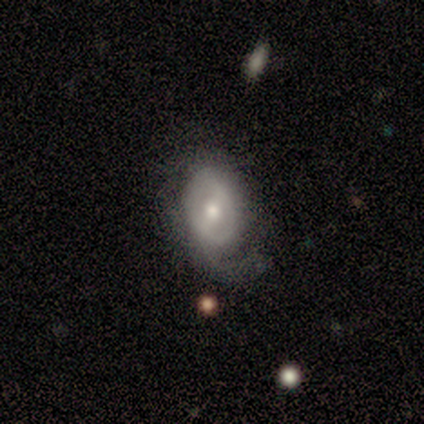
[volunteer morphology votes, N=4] Volunteers were most divided on "bar" (2-way tie): strong: 50%, weak: 50%, no: 0%; "spiral arms" (2-way tie): yes: 50%, no: 50%; "bulge size" (2-way tie): dominant: 50%, moderate: 50%, large: 0%, small: 0%, none: 0%; "merging" (2-way tie): none: 50%, minor disturbance: 50%, major disturbance: 0%, merger: 0%. More confident: spiral winding — medium (100%); spiral arm count — 2 (100%); smooth or featured — featured or disk (75%); edge-on disk — no (67%).